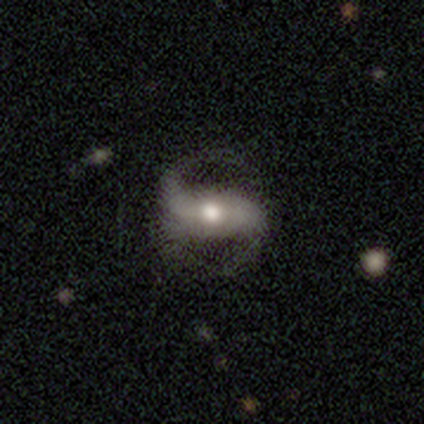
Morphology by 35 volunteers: A featured or disk galaxy (91%) with a weak bar (42%), 2 (97%) medium (48%) spiral arms (100%) and a moderate central bulge (84%). Merging: none (51%).